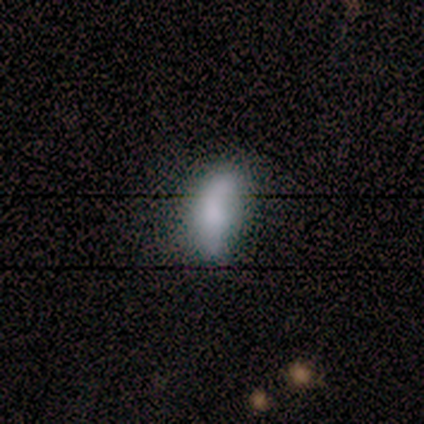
smooth_or_featured: smooth (p=0.60) [alt: featured or disk p=0.40]
how_rounded: in between (p=0.83) [alt: cigar-shaped p=0.17]
merging: none (p=0.50) [alt: minor disturbance p=0.40]